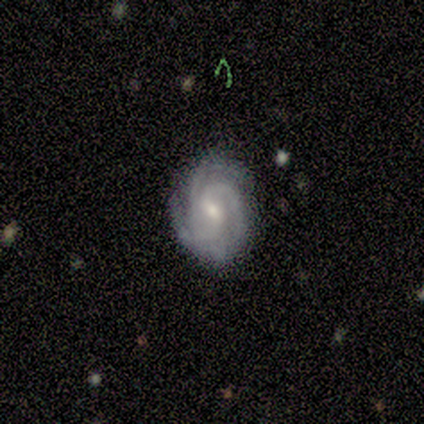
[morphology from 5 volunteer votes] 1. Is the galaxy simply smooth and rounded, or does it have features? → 100% featured or disk, 0% smooth, 0% star or artifact.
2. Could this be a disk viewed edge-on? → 100% no, 0% yes.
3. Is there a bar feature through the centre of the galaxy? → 60% weak, 40% no, 0% strong.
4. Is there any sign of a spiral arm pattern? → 100% yes, 0% no.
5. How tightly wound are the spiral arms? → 100% tight, 0% medium, 0% loose.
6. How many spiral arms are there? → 40% 3, 20% 2, 20% 4, 20% can't tell, 0% 1, 0% more than 4.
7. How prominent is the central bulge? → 60% small, 40% moderate, 0% dominant, 0% large, 0% none.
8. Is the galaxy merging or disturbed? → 80% none, 20% minor disturbance, 0% major disturbance, 0% merger.